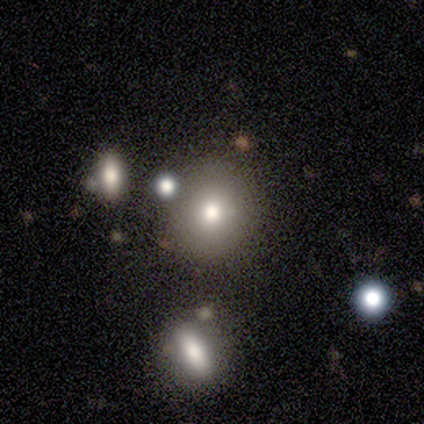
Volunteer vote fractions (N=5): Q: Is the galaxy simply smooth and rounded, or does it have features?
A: featured or disk — 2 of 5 (40%, tied with star or artifact).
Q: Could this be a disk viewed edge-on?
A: no — 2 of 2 (100%).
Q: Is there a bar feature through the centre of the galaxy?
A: no — 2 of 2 (100%).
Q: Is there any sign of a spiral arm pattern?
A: no — 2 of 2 (100%).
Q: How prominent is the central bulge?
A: large — 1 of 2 (50%, tied with moderate).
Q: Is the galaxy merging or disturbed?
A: none — 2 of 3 (67%).